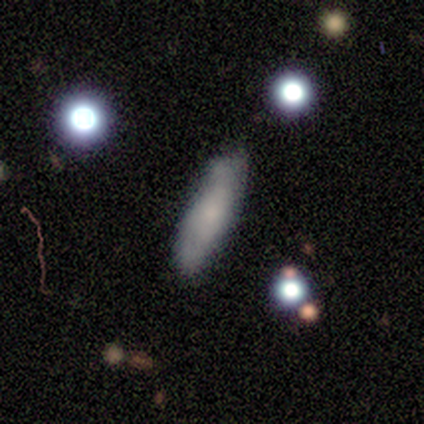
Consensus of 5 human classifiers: smooth_or_featured: smooth (p=0.80) [alt: featured or disk p=0.20]
how_rounded: cigar-shaped (p=0.75) [alt: in between p=0.25]
merging: none (p=0.40) [tied with: minor disturbance p=0.40]